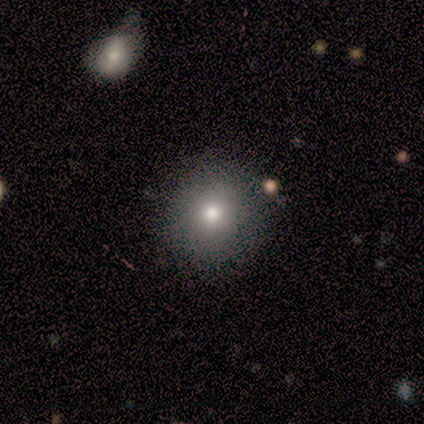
smooth 80%, featured or disk 20%, star or artifact 0%. Down the decision tree: how rounded — round (75%); merging — none (100%).